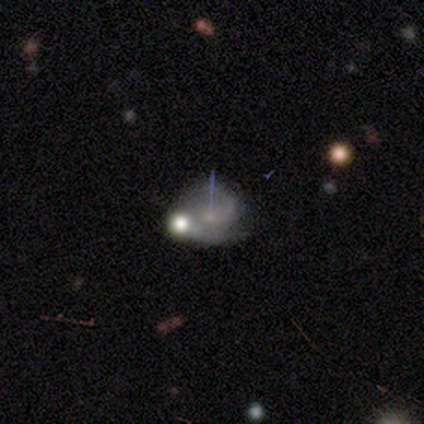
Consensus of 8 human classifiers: This appears to be a featured or disk galaxy (88%) with no bar (83%), 2 (67%) medium (67%) spiral arms (100%) and a small central bulge (100%). Merging: none (71%).